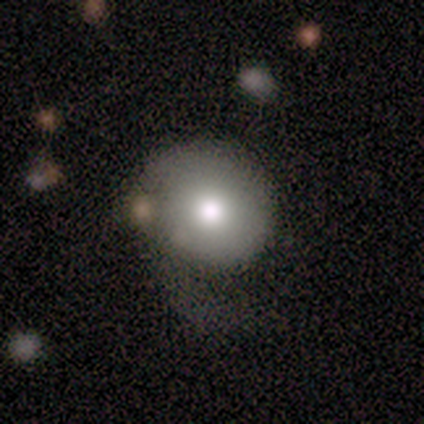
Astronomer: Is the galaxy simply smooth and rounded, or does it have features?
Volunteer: smooth — 75%.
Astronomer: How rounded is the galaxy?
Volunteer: round — 100%.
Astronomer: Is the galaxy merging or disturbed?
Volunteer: minor disturbance — 50%.